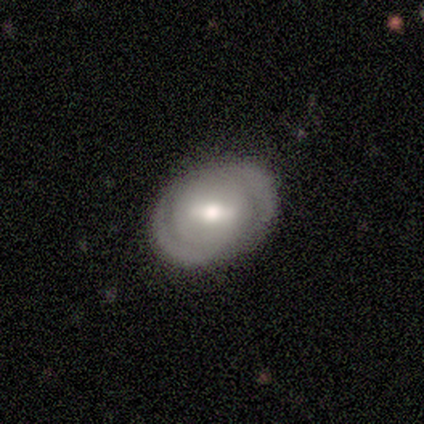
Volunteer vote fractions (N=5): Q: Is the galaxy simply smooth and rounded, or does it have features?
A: featured or disk — 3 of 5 (60%).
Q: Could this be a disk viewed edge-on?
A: no — 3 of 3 (100%).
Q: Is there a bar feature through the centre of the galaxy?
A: no — 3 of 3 (100%).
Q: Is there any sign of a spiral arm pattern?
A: yes — 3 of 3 (100%).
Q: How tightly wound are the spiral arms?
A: loose — 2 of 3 (67%).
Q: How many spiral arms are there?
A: can't tell — 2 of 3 (67%).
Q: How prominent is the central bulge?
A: moderate — 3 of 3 (100%).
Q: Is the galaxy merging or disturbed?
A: none — 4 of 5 (80%).